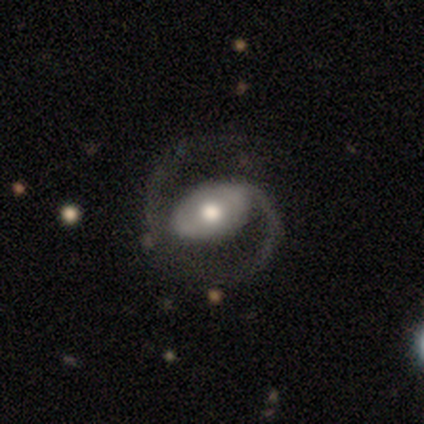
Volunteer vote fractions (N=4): Morphology: type=featured or disk (100%); edge-on=no (100%); bar=strong (50%, tied with no); spiral arms=yes (75%); winding=loose (67%); arm count=2 (100%); bulge=moderate (75%); merging=none (75%).